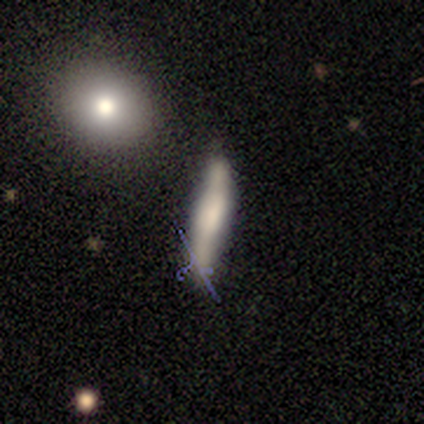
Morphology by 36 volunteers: type=smooth (56%); roundness=cigar-shaped (95%); merging=none (77%).